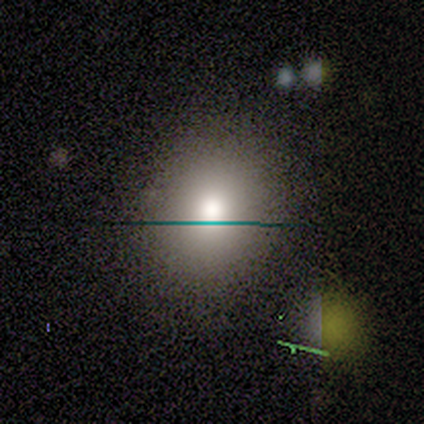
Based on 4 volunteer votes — Smooth or featured: smooth — 75% (featured or disk — 25%)
How rounded: round — 100%
Merging: none — 100%